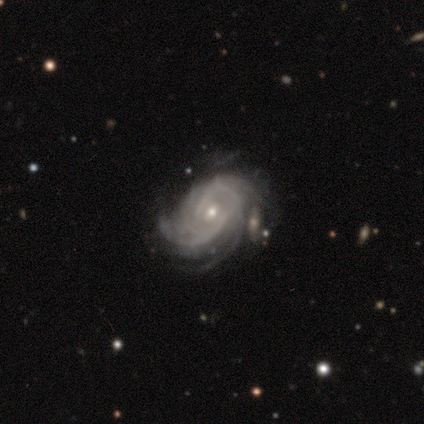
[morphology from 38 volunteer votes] This appears to be a featured or disk galaxy (87%) with no bar (65%), tight (60%) spiral arms (97%) and a small central bulge (71%). Merging: none (53%).